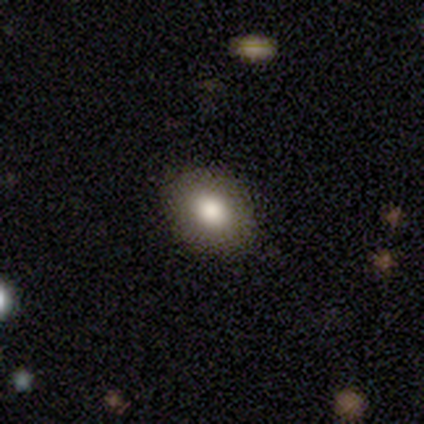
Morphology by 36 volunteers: type=smooth (86%); roundness=in between (65%); merging=none (94%).